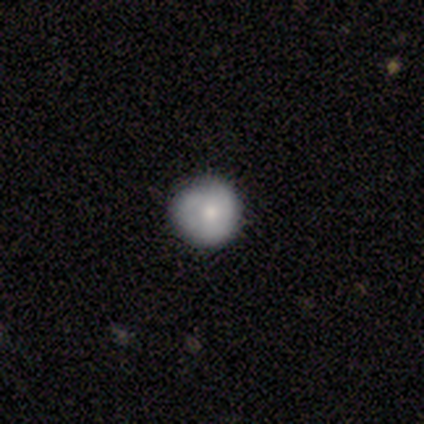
A smooth galaxy with no disk features (60%) that is round (100%).

Vote fractions:
- Smooth or featured? smooth: 60% / featured or disk: 20% / star or artifact: 20%
- How rounded? round: 100% / in between: 0% / cigar-shaped: 0%
- Merging? none: 75% / major disturbance: 25% / minor disturbance: 0% / merger: 0%